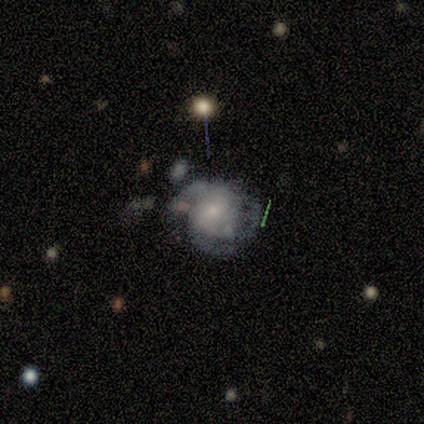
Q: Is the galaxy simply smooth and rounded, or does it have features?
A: featured or disk — 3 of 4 (75%).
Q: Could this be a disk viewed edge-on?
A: no — 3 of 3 (100%).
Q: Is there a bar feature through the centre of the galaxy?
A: no — 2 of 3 (67%).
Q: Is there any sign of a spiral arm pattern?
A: yes — 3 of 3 (100%).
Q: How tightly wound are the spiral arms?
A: tight — 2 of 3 (67%).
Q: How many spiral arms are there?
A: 2 — 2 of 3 (67%).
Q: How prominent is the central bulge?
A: moderate — 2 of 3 (67%).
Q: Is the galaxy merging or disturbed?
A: none — 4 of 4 (100%).